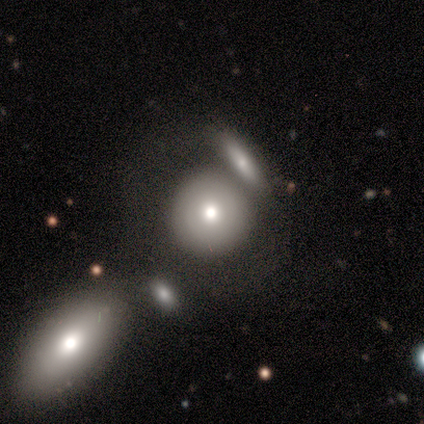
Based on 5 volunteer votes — Q: Smooth or featured?
A: smooth (60%); runner-up: star or artifact (40%)
Q: How rounded?
A: round (100%)
Q: Merging?
A: merger (67%); runner-up: none (33%)